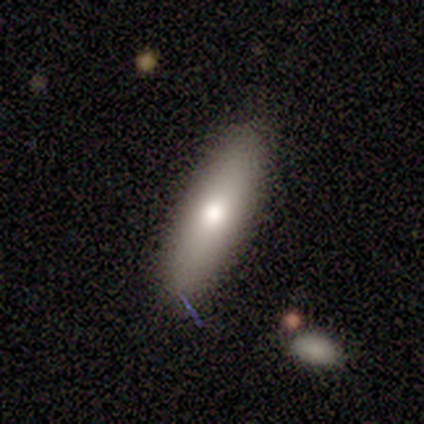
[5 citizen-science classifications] A smooth galaxy with no disk features (80%) that is cigar-shaped (75%).

Vote fractions:
- Smooth or featured? smooth: 80% / featured or disk: 20% / star or artifact: 0%
- How rounded? cigar-shaped: 75% / in between: 25% / round: 0%
- Merging? none: 80% / minor disturbance: 20% / major disturbance: 0% / merger: 0%